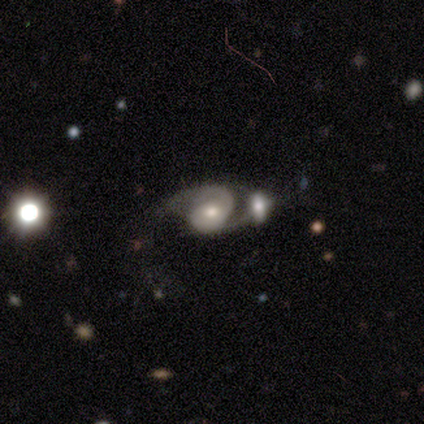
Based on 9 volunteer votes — Volunteers were most divided on "merging": merger: 44%, major disturbance: 33%, none: 22%, minor disturbance: 0%. More confident: spiral arms — yes (100%); spiral arm count — 2 (100%); edge-on disk — no (86%); smooth or featured — featured or disk (78%); bar — weak (67%); spiral winding — medium (67%); bulge size — small (67%).